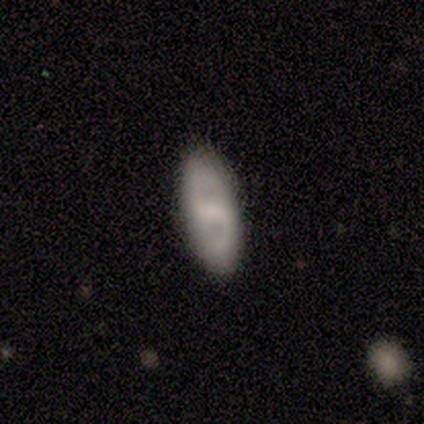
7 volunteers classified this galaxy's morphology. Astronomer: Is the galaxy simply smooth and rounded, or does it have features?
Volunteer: featured or disk — 86%.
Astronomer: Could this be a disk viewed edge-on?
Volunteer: no — 100%.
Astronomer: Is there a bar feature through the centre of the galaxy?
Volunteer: weak — 50% (runner-up: strong, 33%).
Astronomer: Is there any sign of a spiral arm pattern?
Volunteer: yes — 100%.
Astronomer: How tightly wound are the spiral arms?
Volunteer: medium — 83%.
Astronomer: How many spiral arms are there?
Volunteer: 2 — 100%.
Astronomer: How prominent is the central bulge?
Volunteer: none — 50% (runner-up: moderate, 33%).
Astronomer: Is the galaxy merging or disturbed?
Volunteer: none — 100%.